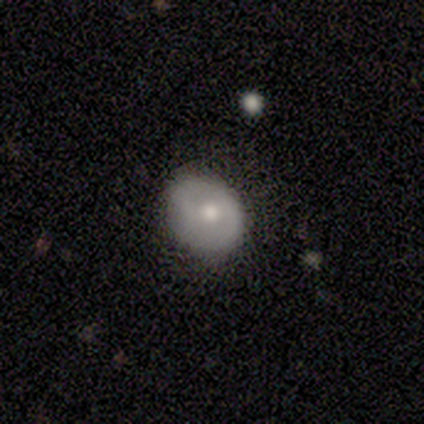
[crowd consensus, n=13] Volunteers were most divided on "smooth or featured": smooth: 54%, featured or disk: 46%, star or artifact: 0%. More confident: how rounded — round (86%); merging — none (77%).